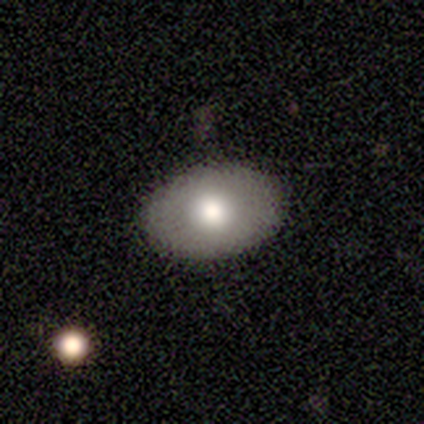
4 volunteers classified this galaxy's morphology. smooth_or_featured: smooth (p=1.00)
how_rounded: in between (p=1.00)
merging: none (p=1.00)